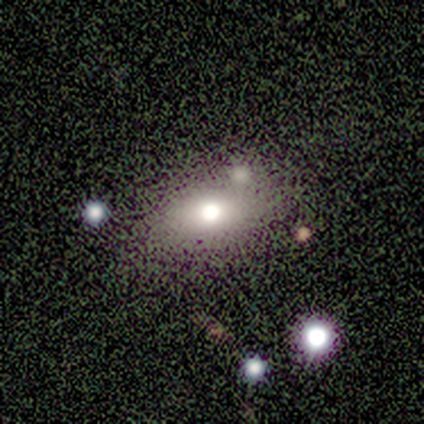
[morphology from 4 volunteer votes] type=smooth (75%); roundness=in between (67%); merging=none (100%).